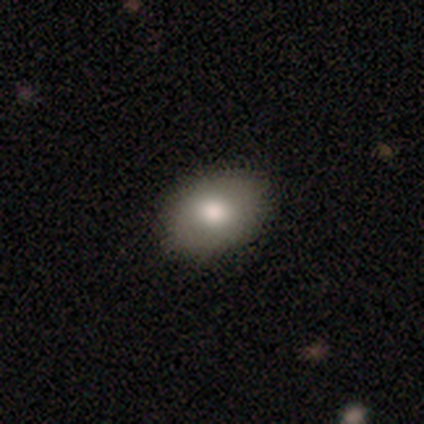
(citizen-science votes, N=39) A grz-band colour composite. It shows a smooth galaxy with no disk features (69%) that is in between round and cigar-shaped (81%). Merging: none (81%).